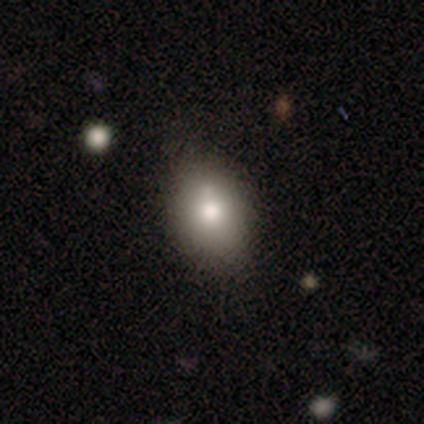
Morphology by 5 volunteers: This is clearly a smooth galaxy (80%). How rounded: likely in between (75%). Merging: clearly none (80%).